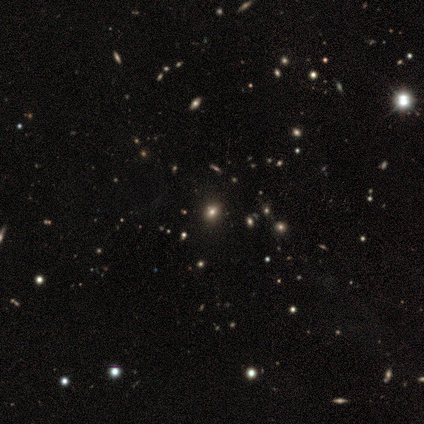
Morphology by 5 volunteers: smooth-or-featured: smooth: 40% (tied) | star or artifact: 40% (tied) | featured or disk: 20%
  how-rounded: round: 100% | in between: 0% | cigar-shaped: 0%
  merging: none: 100% | minor disturbance: 0% | major disturbance: 0% | merger: 0%